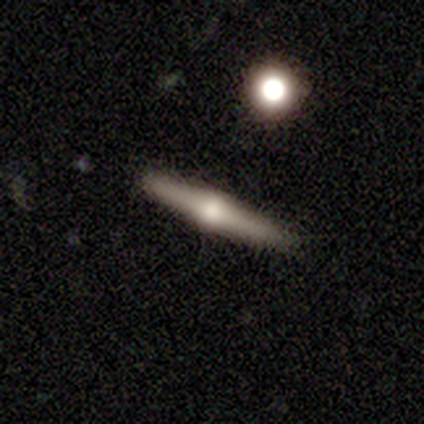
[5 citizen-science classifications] This is clearly a featured or disk galaxy (100%). It is clearly viewed edge-on (100%). Edge-on bulge: clearly rounded (100%). Merging: clearly none (100%).